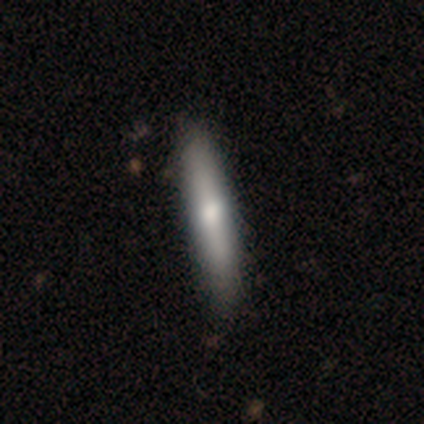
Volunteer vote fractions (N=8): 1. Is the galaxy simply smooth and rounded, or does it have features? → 62% smooth, 38% featured or disk, 0% star or artifact.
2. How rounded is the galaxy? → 100% cigar-shaped, 0% round, 0% in between.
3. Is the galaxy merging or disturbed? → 88% none, 12% minor disturbance, 0% major disturbance, 0% merger.